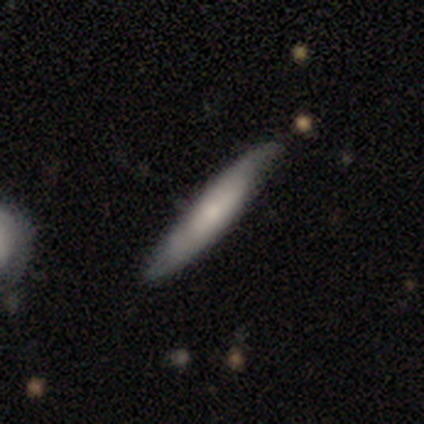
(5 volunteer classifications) Q: Smooth or featured?
A: featured or disk (60%); runner-up: smooth (40%)
Q: Edge-on disk?
A: yes (67%); runner-up: no (33%)
Q: Edge-on bulge?
A: none (100%)
Q: Merging?
A: none (60%); runner-up: minor disturbance (40%)